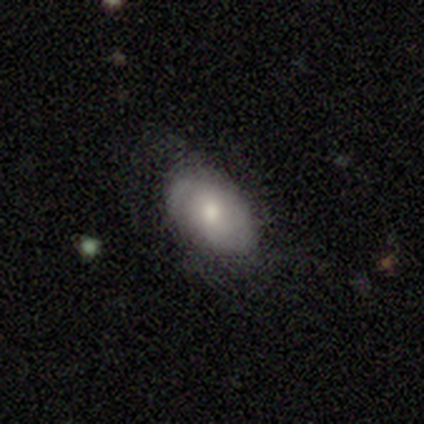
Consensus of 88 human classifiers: This is likely a smooth galaxy (66%). How rounded: clearly in between (90%). Merging: likely none (76%).